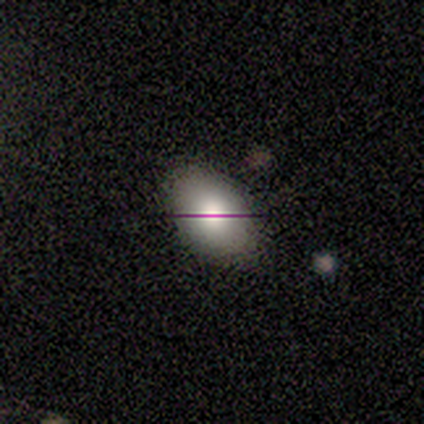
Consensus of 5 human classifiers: Smooth or featured? smooth (100%)
How rounded? in between (100%)
Merging? none (100%)